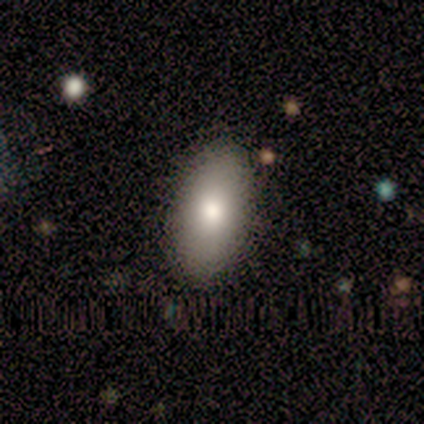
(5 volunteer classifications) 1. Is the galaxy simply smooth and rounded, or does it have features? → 80% smooth, 20% featured or disk, 0% star or artifact.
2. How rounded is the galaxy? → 75% in between, 25% round, 0% cigar-shaped.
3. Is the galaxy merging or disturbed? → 100% none, 0% minor disturbance, 0% major disturbance, 0% merger.